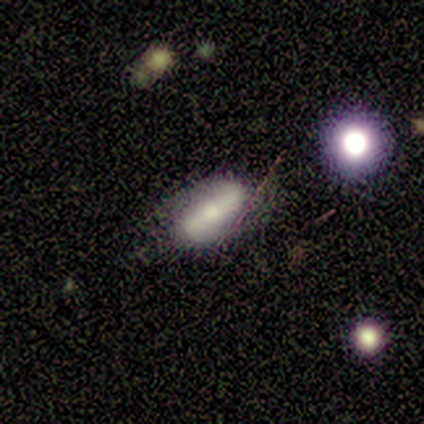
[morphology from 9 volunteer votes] smooth_or_featured: smooth (p=0.56) [alt: featured or disk p=0.33]
how_rounded: in between (p=1.00)
merging: none (p=0.75) [alt: minor disturbance p=0.25]